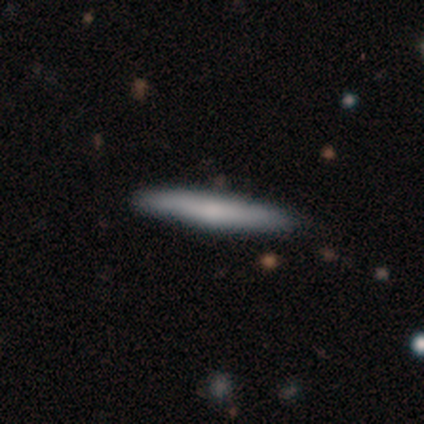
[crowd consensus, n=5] Smooth or featured: smooth — 80% (featured or disk — 20%)
How rounded: cigar-shaped — 100%
Merging: none — 100%